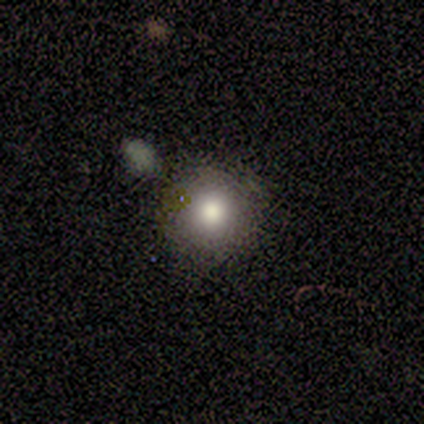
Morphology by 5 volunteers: Overall: smooth (80%). How rounded: round (100%). Merging: none (50%; minor disturbance 25%).